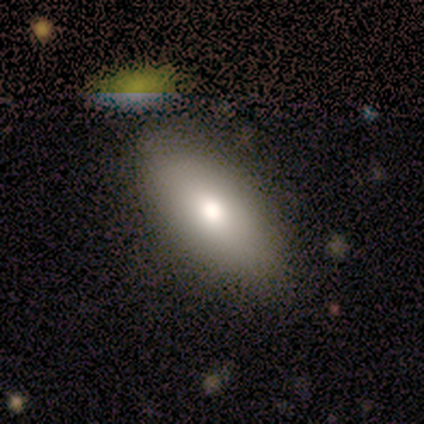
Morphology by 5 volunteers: Smooth or featured: smooth — 60% (star or artifact — 40%)
How rounded: in between — 100%
Merging: none — 100%